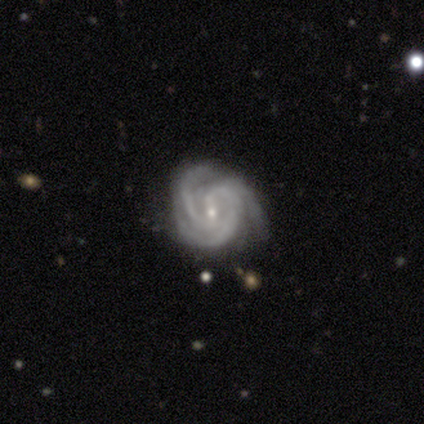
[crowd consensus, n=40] This is clearly a featured or disk galaxy (100%). It is clearly not viewed edge-on (100%). Bar: marginally no (42%). Spiral arm pattern: clearly yes (98%). Spiral arm count: likely 3 (74%). Spiral winding: likely tight (69%). Central bulge: clearly small (88%). Merging: likely none (72%).